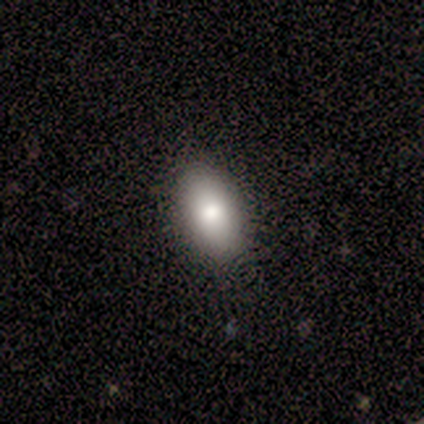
Smooth or featured?
  - smooth: 60% *
  - featured or disk: 40%
  - star or artifact: 0%
How rounded?
  - in between: 100% *
  - round: 0%
  - cigar-shaped: 0%
Merging?
  - none: 60% *
  - minor disturbance: 40%
  - major disturbance: 0%
  - merger: 0%